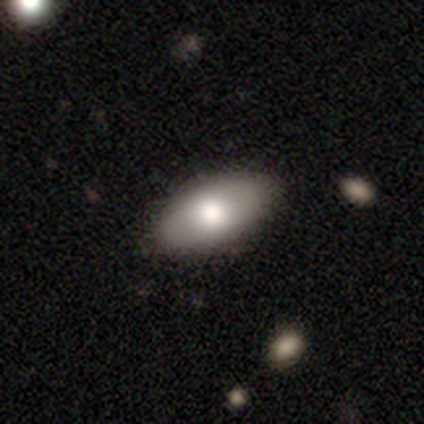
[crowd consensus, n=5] Smooth or featured? smooth (80%)
How rounded? in between (100%)
Merging? none (100%)